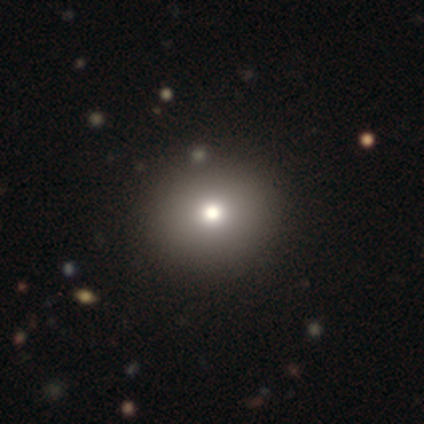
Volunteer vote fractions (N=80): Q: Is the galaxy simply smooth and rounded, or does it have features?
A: smooth — 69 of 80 (86%).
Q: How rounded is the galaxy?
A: round — 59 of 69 (86%).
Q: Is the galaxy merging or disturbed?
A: none — 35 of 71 (49%).